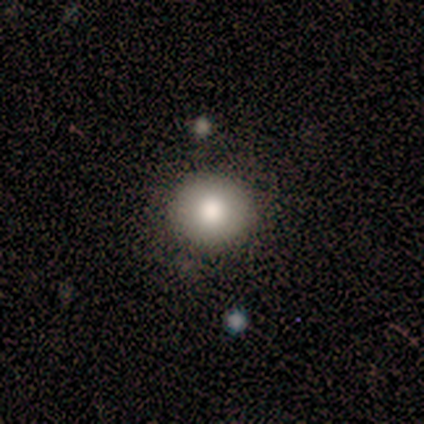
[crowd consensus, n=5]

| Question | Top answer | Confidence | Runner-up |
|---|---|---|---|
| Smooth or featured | smooth | 100% | — |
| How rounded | round | 80% | in between (20%) |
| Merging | none | 80% | minor disturbance (20%) |